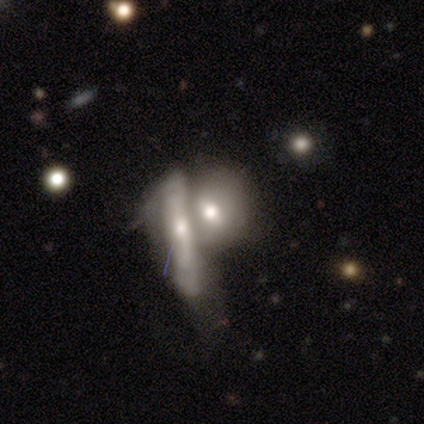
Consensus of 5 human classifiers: smooth 60%, featured or disk 40%, star or artifact 0%. Down the decision tree: how rounded — in between (67%); merging — merger (100%).